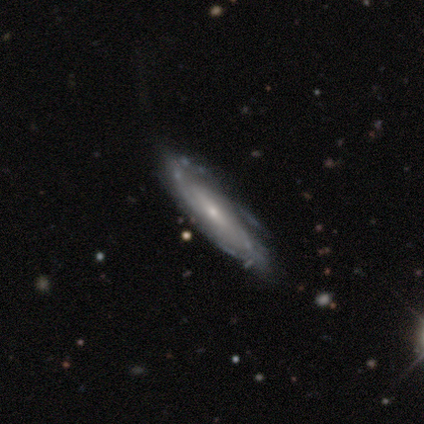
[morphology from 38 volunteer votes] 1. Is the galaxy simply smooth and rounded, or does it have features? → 79% featured or disk, 16% smooth, 5% star or artifact.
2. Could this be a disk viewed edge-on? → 67% no, 33% yes.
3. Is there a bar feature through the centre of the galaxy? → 50% weak, 35% no, 15% strong.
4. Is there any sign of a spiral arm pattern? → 75% yes, 25% no.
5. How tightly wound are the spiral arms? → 47% tight (tied), 47% medium (tied), 7% loose.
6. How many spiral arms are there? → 73% can't tell, 20% 3, 7% 2, 0% 1, 0% 4, 0% more than 4.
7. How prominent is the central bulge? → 85% small, 15% moderate, 0% dominant, 0% large, 0% none.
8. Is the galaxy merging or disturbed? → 67% none, 25% minor disturbance, 6% major disturbance, 3% merger.